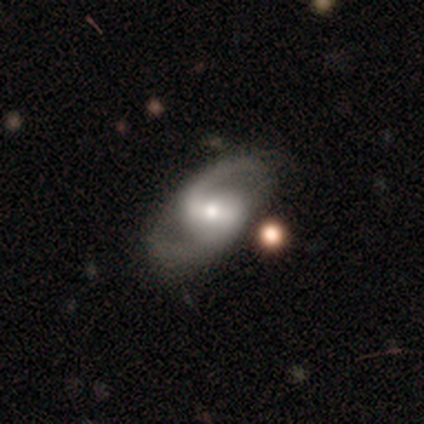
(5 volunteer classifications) Smooth or featured?
  - featured or disk: 100% *
  - smooth: 0%
  - star or artifact: 0%
Edge-on disk?
  - no: 100% *
  - yes: 0%
Bar?
  - strong: 40% * (tied)
  - weak: 40% * (tied)
  - no: 20%
Spiral arms?
  - yes: 100% *
  - no: 0%
Spiral winding?
  - loose: 60% *
  - tight: 20%
  - medium: 20%
Spiral arm count?
  - 2: 100% *
  - 1: 0%
  - 3: 0%
  - 4: 0%
  - more than 4: 0%
  - can't tell: 0%
Bulge size?
  - small: 60% *
  - moderate: 40%
  - dominant: 0%
  - large: 0%
  - none: 0%
Merging?
  - none: 80% *
  - minor disturbance: 20%
  - major disturbance: 0%
  - merger: 0%